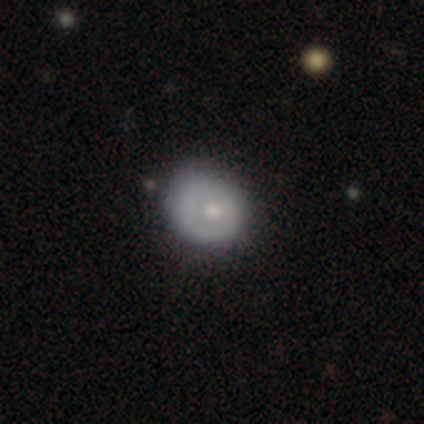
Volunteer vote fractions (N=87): A smooth galaxy with no disk features (57%) that is round (74%). Merging: none (53%).